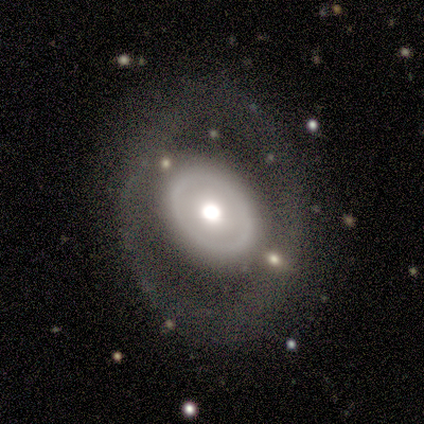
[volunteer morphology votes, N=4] Smooth or featured?
  - featured or disk: 75% *
  - star or artifact: 25%
  - smooth: 0%
Edge-on disk?
  - no: 100% *
  - yes: 0%
Bar?
  - no: 100% *
  - strong: 0%
  - weak: 0%
Spiral arms?
  - no: 100% *
  - yes: 0%
Bulge size?
  - large: 67% *
  - dominant: 33%
  - moderate: 0%
  - small: 0%
  - none: 0%
Merging?
  - none: 67% *
  - minor disturbance: 33%
  - major disturbance: 0%
  - merger: 0%